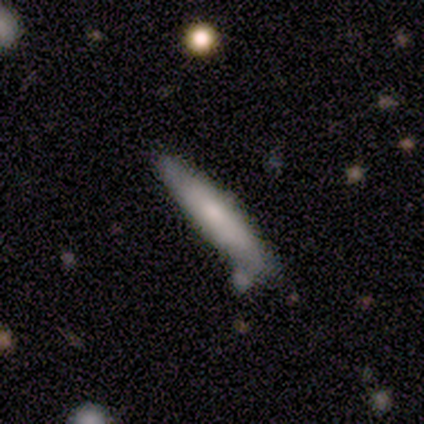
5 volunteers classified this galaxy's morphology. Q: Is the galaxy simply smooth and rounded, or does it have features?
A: smooth — 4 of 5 (80%).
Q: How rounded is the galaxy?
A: cigar-shaped — 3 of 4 (75%).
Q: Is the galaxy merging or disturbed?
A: none — 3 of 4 (75%).